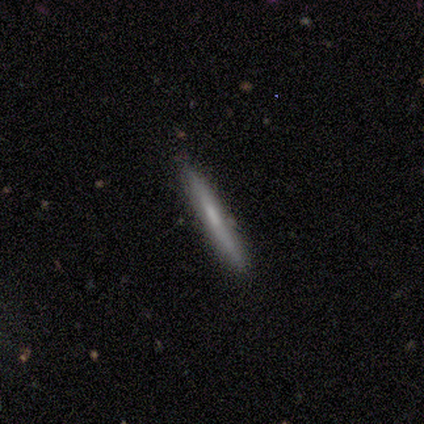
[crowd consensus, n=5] smooth-or-featured: smooth: 60% | featured or disk: 40% | star or artifact: 0%
  how-rounded: cigar-shaped: 100% | round: 0% | in between: 0%
  merging: none: 100% | minor disturbance: 0% | major disturbance: 0% | merger: 0%